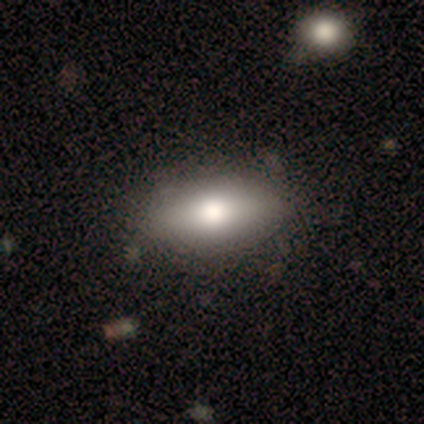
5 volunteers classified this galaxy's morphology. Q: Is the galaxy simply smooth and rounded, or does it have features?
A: smooth — 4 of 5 (80%).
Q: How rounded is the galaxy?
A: in between — 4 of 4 (100%).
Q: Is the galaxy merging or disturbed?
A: none — 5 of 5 (100%).